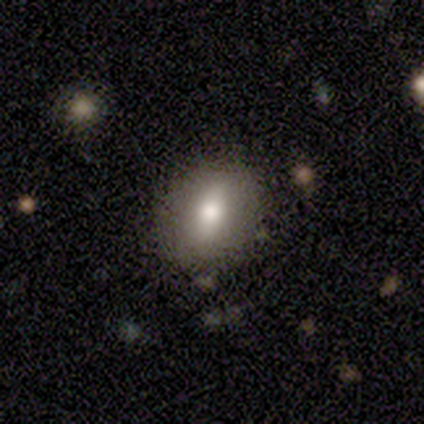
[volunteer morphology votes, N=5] This appears to be a smooth galaxy with no disk features (60%) that is in between round and cigar-shaped (100%). Merging: none (80%).